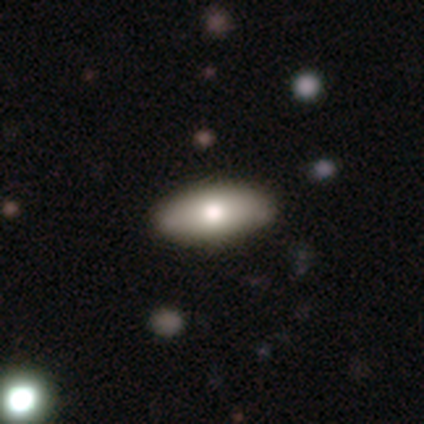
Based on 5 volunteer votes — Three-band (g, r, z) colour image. It shows a smooth galaxy with no disk features (100%) that is in between round and cigar-shaped (80%). Merging: none (100%).